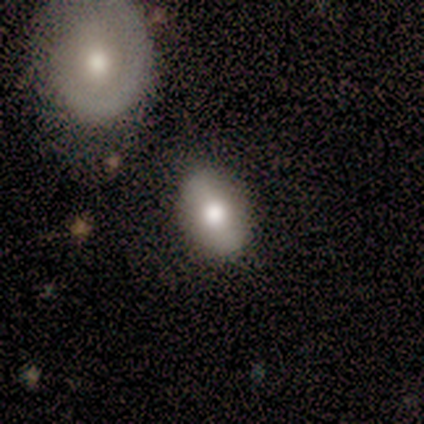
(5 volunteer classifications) Q: Smooth or featured?
A: smooth (80%); runner-up: featured or disk (20%)
Q: How rounded?
A: in between (75%); runner-up: round (25%)
Q: Merging?
A: none (60%); runner-up: minor disturbance (20%)